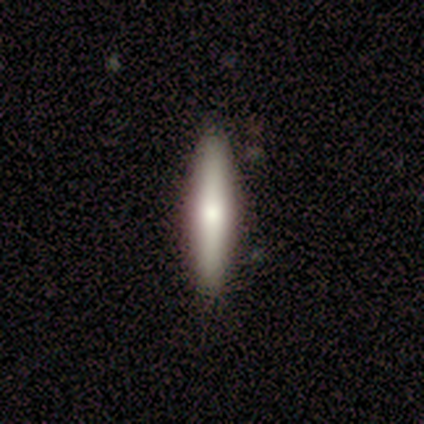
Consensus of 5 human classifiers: Smooth or featured? smooth (60%)
How rounded? cigar-shaped (100%)
Merging? none (80%)